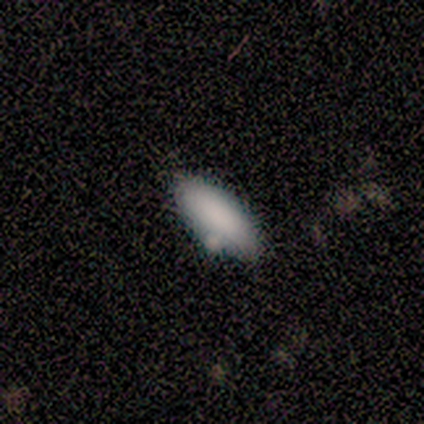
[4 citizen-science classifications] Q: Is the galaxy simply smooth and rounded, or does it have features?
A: smooth — 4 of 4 (100%).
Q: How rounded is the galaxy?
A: in between — 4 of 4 (100%).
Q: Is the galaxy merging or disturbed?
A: none — 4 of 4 (100%).